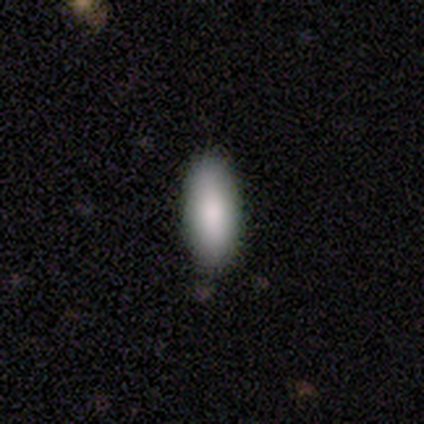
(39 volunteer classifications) Smooth or featured? 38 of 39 (97%) said smooth. How rounded? 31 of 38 (82%) said in between. Merging? 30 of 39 (77%) said none.